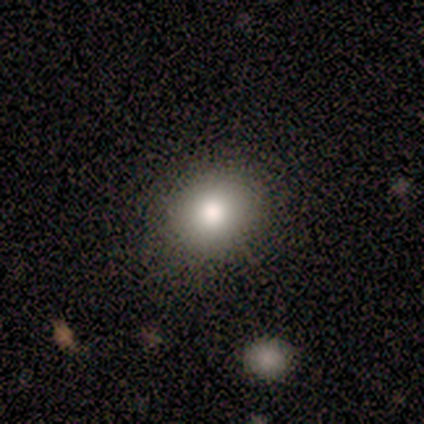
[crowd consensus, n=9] This is marginally a smooth galaxy (44%). How rounded: clearly round (100%). Merging: clearly none (86%).